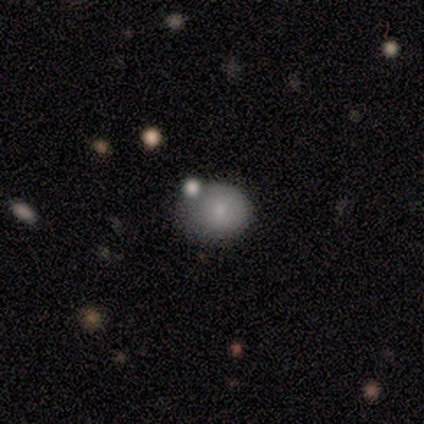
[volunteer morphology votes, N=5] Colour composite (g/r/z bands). It shows a smooth galaxy with no disk features (80%) that is round (75%). Merging: none (80%).